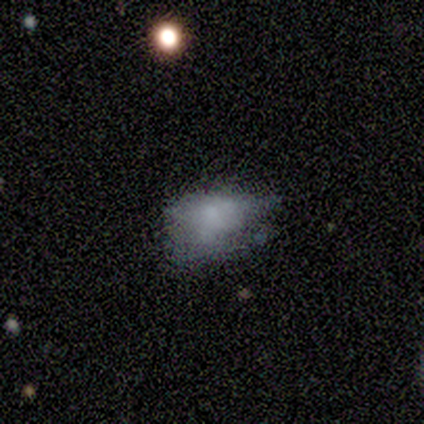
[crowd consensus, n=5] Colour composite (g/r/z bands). It shows a smooth galaxy with no disk features (60%) that is round (67%). Merging: minor disturbance (50%, tied with major disturbance).